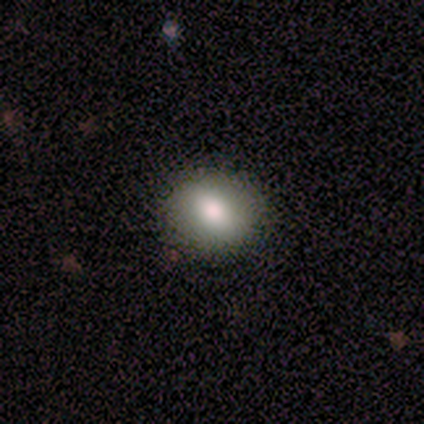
Smooth or featured?
  - smooth: 80% *
  - featured or disk: 20%
  - star or artifact: 0%
How rounded?
  - round: 75% *
  - in between: 25%
  - cigar-shaped: 0%
Merging?
  - none: 100% *
  - minor disturbance: 0%
  - major disturbance: 0%
  - merger: 0%